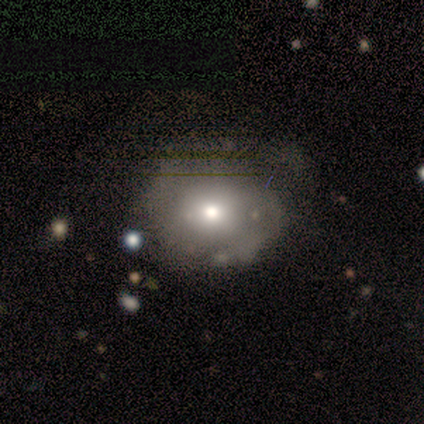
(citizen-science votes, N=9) This appears to be a smooth galaxy with no disk features (78%) that is round (71%). Merging: none (44%, tied with minor disturbance).